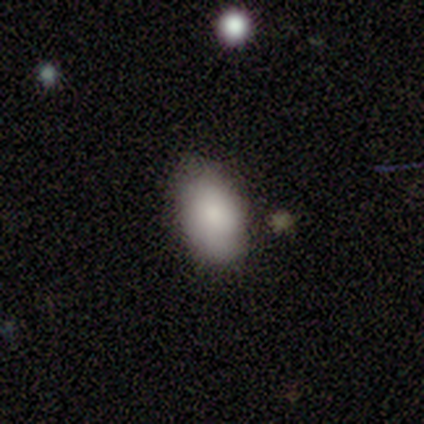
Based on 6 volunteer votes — smooth_or_featured: smooth (p=1.00)
how_rounded: in between (p=1.00)
merging: none (p=0.67) [alt: minor disturbance p=0.33]